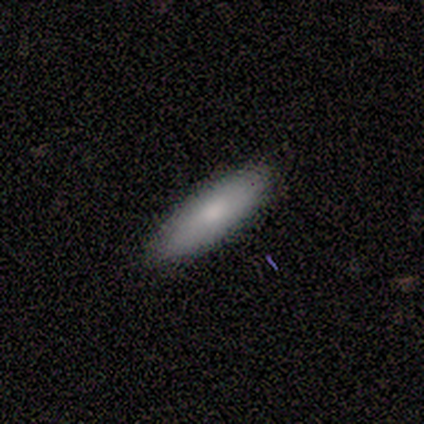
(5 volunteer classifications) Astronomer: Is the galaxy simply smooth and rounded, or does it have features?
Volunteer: smooth — 100%.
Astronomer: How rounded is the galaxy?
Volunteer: in between — 80%.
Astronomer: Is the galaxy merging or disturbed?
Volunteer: none — 100%.